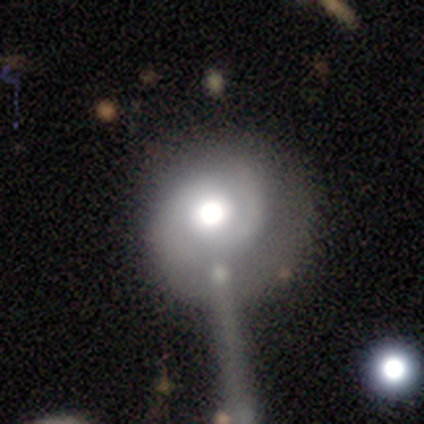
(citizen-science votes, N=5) Volunteers were most divided on "spiral winding" (2-way tie): tight: 50%, medium: 50%, loose: 0%. More confident: edge-on disk — no (100%); bar — no (100%); spiral arms — yes (100%); smooth or featured — featured or disk (80%); merging — major disturbance (80%); spiral arm count — 2 (75%); bulge size — large (75%).